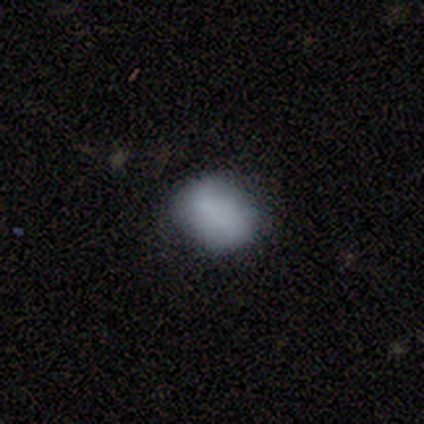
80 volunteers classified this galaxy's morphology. A smooth galaxy with no disk features (86%) that is in between round and cigar-shaped (57%).

Vote fractions:
- Smooth or featured? smooth: 86% / featured or disk: 10% / star or artifact: 4%
- How rounded? in between: 57% / round: 43% / cigar-shaped: 0%
- Merging? none: 68% / minor disturbance: 25% / major disturbance: 6% / merger: 1%